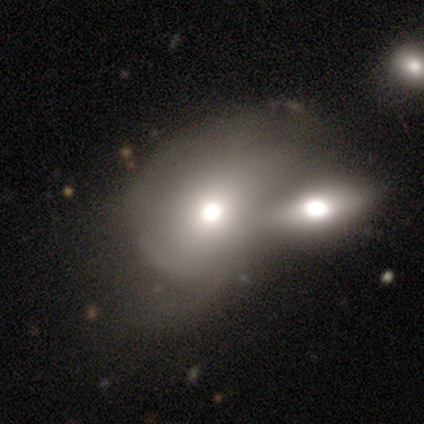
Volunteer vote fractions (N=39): Volunteers were most divided on "how rounded": in between: 55%, round: 45%, cigar-shaped: 0%. More confident: merging — merger (69%); smooth or featured — smooth (51%).